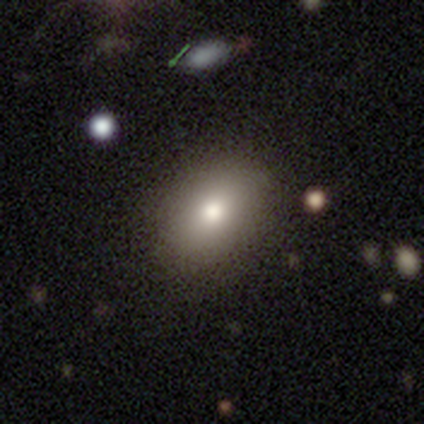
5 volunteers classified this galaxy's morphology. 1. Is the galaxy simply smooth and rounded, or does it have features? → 60% smooth, 40% featured or disk, 0% star or artifact.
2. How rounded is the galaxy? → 100% in between, 0% round, 0% cigar-shaped.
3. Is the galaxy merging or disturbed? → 100% none, 0% minor disturbance, 0% major disturbance, 0% merger.